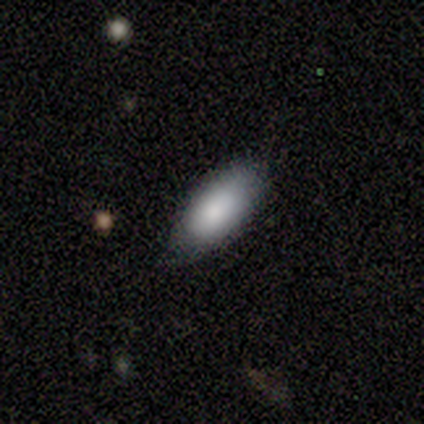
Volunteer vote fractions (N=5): smooth 100%, featured or disk 0%, star or artifact 0%. Down the decision tree: how rounded — in between (100%); merging — none (80%).